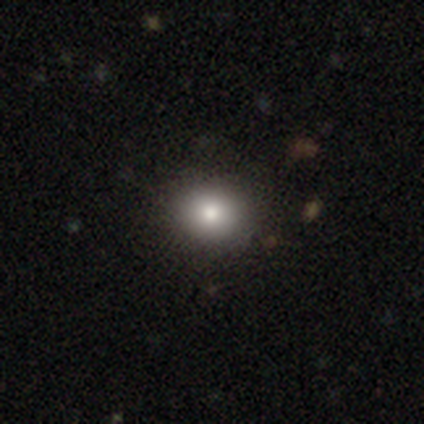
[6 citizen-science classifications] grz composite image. It shows a smooth galaxy with no disk features (67%) that is round (100%). Merging: none (50%, tied with minor disturbance).